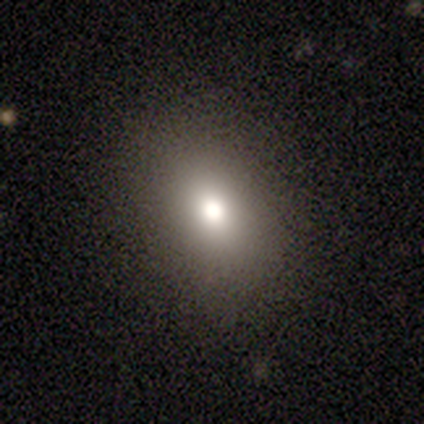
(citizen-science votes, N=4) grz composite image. It shows a smooth galaxy with no disk features (75%) that is round (67%). Merging: none (100%).